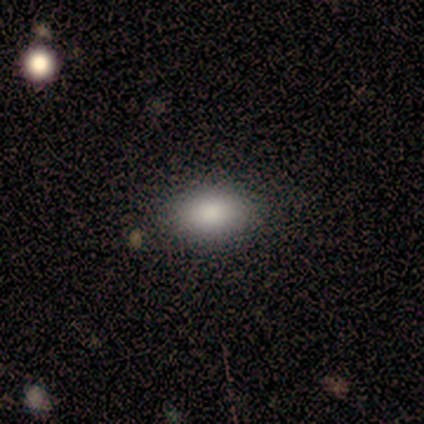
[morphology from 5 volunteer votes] Smooth or featured? smooth (80%)
How rounded? in between (100%)
Merging? none (80%)